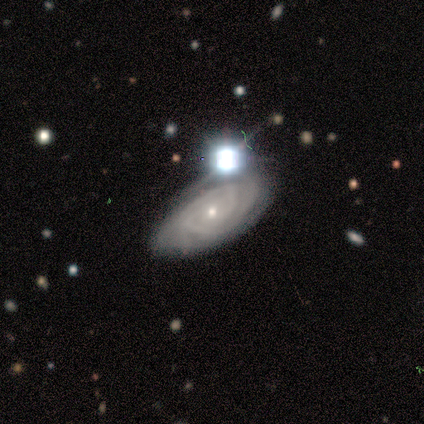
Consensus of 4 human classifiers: Q: Smooth or featured?
A: featured or disk (100%)
Q: Edge-on disk?
A: no (75%); runner-up: yes (25%)
Q: Bar?
A: no (100%)
Q: Spiral arms?
A: yes (100%)
Q: Spiral winding?
A: tight (67%); runner-up: medium (33%)
Q: Spiral arm count?
A: can't tell (67%); runner-up: 2 (33%)
Q: Bulge size?
A: small (67%); runner-up: moderate (33%)
Q: Merging?
A: none (50%); runner-up: minor disturbance (25%)